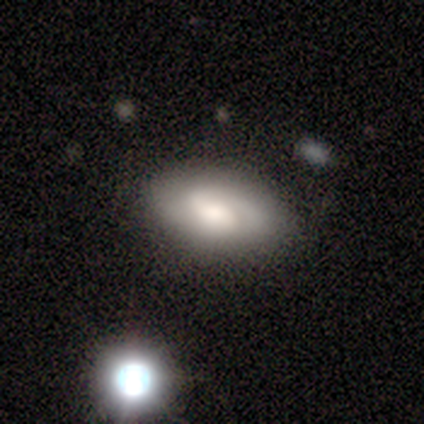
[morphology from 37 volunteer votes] Overall: featured or disk (54%; smooth 32%). Edge-on disk: no (90%). Bar: weak (50%; no 33%). Spiral arms: yes (89%). Spiral arm count: 2 (56%; can't tell 19%). Spiral winding: tight (56%; medium 31%). Bulge size: moderate (44%; large 22%). Merging: none (66%).